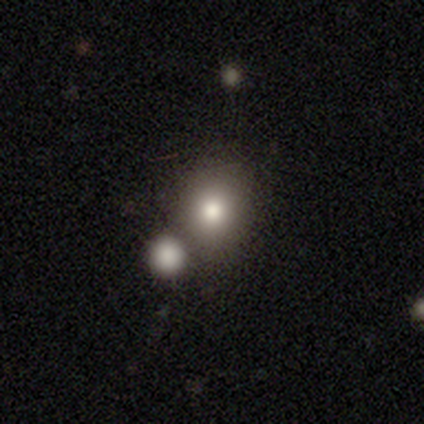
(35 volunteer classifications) Volunteers were most divided on "merging": merger: 59%, none: 0%, minor disturbance: 0%, major disturbance: 0%. More confident: how rounded — round (93%); smooth or featured — smooth (80%).